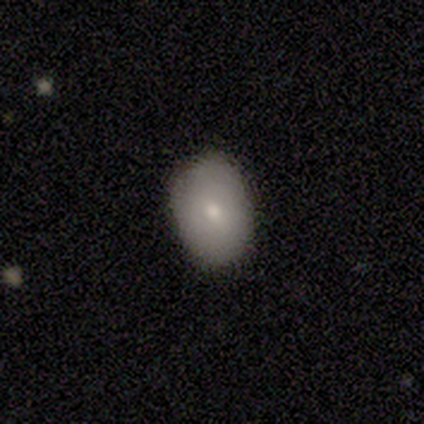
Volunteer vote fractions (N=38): Overall: smooth (76%). How rounded: in between (83%). Merging: none (84%).